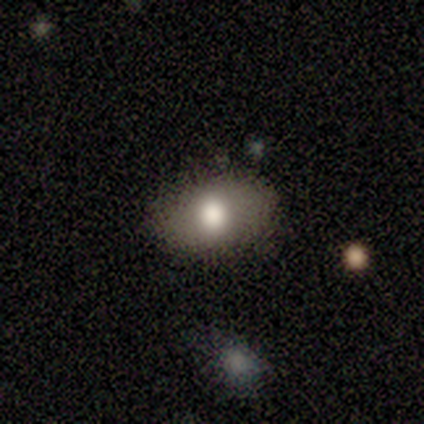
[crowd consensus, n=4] Smooth or featured? smooth (100%)
How rounded? in between (100%)
Merging? none (75%)